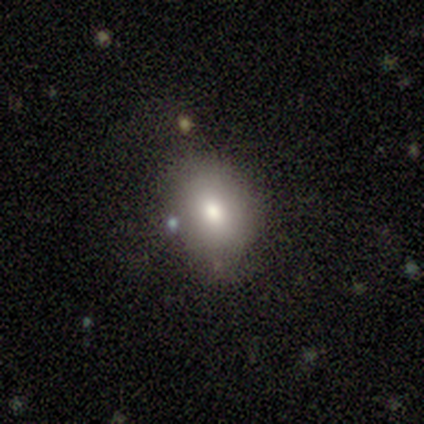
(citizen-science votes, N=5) Overall: smooth (80%). How rounded: round (50%, tied with in between). Merging: none (50%, tied with minor disturbance).